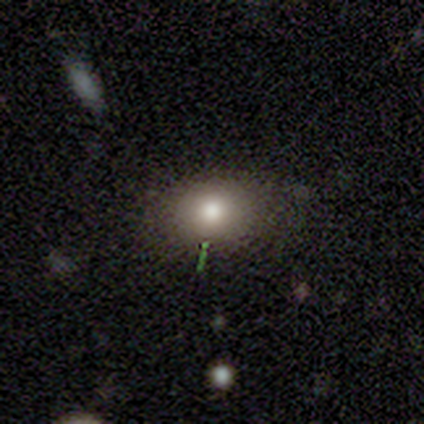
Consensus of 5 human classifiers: A smooth galaxy with no disk features (80%) that is in between round and cigar-shaped (100%). Merging: none (80%).